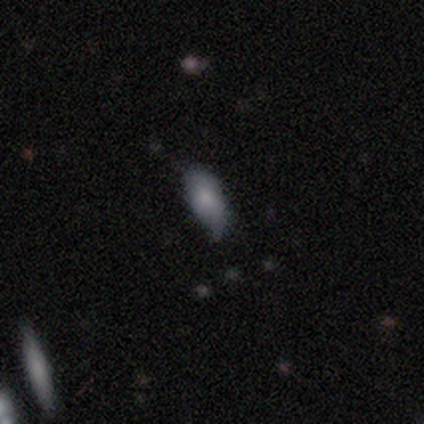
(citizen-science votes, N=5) Smooth or featured: smooth — 100%
How rounded: in between — 80% (cigar-shaped — 20%)
Merging: none — 80% (major disturbance — 20%)